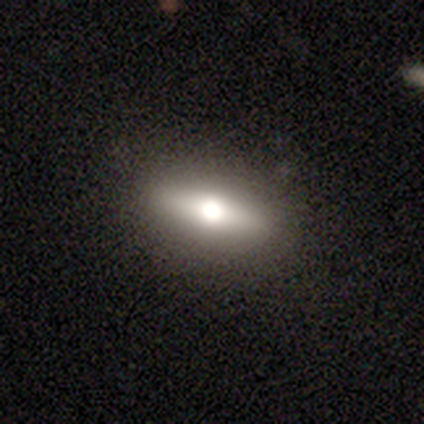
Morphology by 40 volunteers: A smooth galaxy with no disk features (62%) that is cigar-shaped (60%). Merging: none (92%).